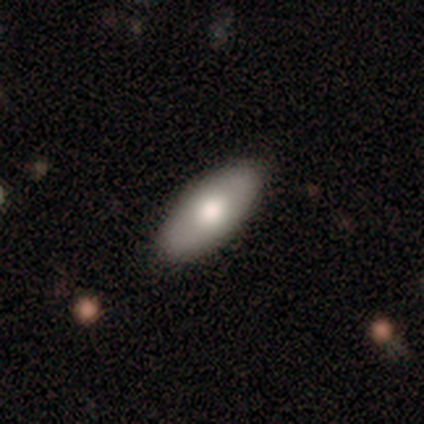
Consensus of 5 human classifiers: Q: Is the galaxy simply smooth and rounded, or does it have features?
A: smooth — 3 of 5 (60%).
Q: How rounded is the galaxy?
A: in between — 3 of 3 (100%).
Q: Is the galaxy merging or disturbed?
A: none — 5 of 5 (100%).